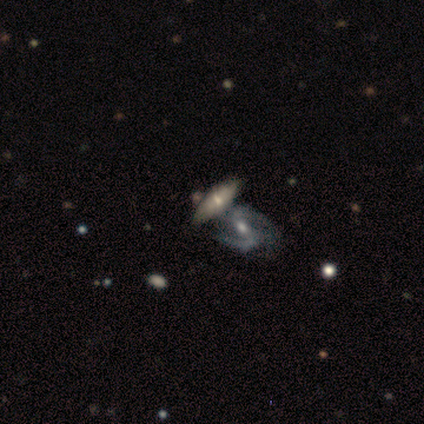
Volunteers were most divided on "bar" (2-way tie): strong: 38%, weak: 38%, no: 25%. More confident: smooth or featured — featured or disk (92%); spiral arm count — 2 (83%); spiral arms — yes (75%); edge-on disk — no (73%); spiral winding — medium (67%); bulge size — moderate (62%); merging — merger (50%).